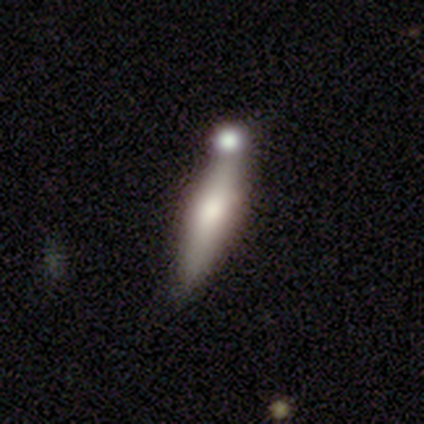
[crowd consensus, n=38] smooth-or-featured: featured or disk: 53% | smooth: 42% | star or artifact: 5%
  disk-edge-on: yes: 85% | no: 15%
    edge-on-bulge: rounded: 76% | boxy: 12% | none: 12%
  merging: merger: 50% | none: 33% | minor disturbance: 8% | major disturbance: 8%